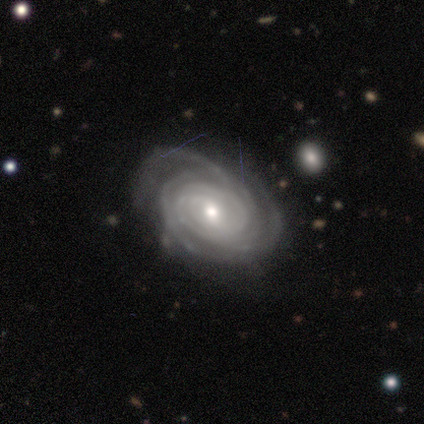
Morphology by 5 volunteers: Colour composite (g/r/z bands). It shows a featured or disk galaxy (80%) with no bar (50%), 3 (50%) tight (100%) spiral arms (100%) and a moderate central bulge (50%, tied with small). Merging: none (50%, tied with minor disturbance).